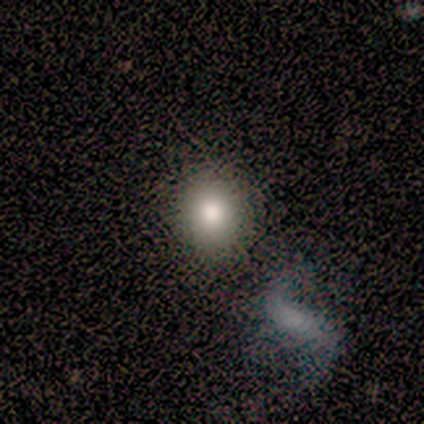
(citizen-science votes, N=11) Smooth or featured? smooth (82%)
How rounded? round (89%)
Merging? none (82%)